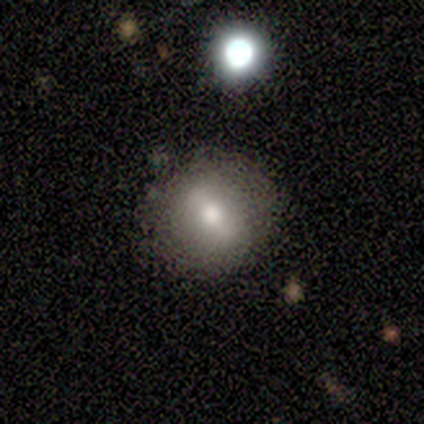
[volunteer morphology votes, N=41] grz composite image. It shows a smooth galaxy with no disk features (61%) that is round (76%). Merging: none (92%).